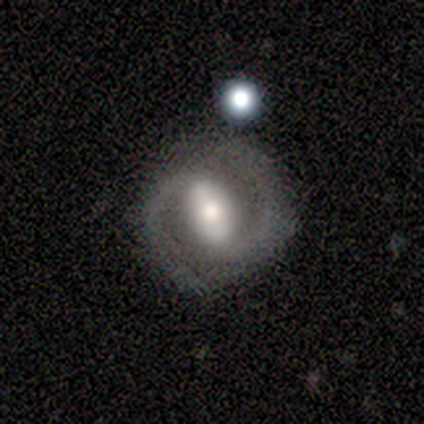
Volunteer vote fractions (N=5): Volunteers were most divided on "bulge size" (4-way tie): dominant: 25%, large: 25%, moderate: 25%, small: 25%, none: 0%. More confident: edge-on disk — no (100%); spiral arms — yes (100%); spiral arm count — 2 (100%); smooth or featured — featured or disk (80%); merging — none (80%); bar — weak (50%); spiral winding — medium (50%).